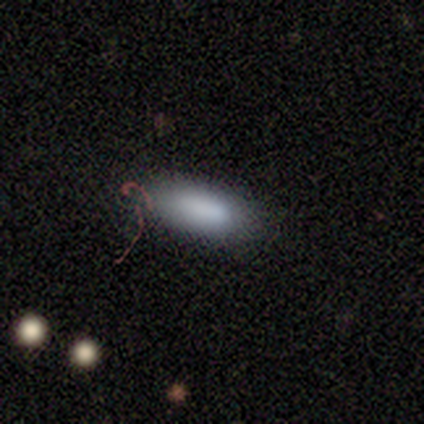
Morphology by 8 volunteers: A smooth galaxy with no disk features (100%) that is in between round and cigar-shaped (88%). Merging: none (62%).